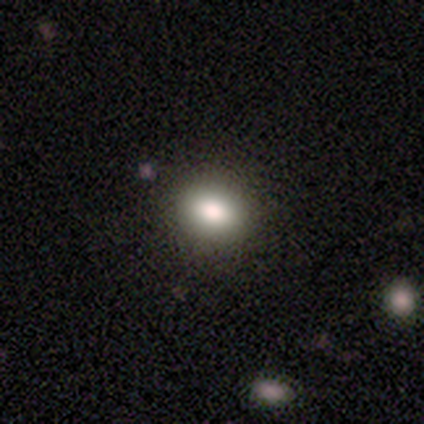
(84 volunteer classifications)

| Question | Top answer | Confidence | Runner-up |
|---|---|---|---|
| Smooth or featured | smooth | 77% | star or artifact (15%) |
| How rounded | round | 54% | in between (43%) |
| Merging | none | 85% | minor disturbance (11%) |